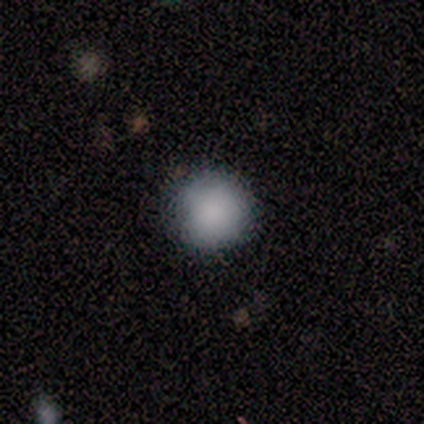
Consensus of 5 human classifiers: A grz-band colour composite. It shows a smooth galaxy with no disk features (100%) that is round (100%). Merging: none (100%).